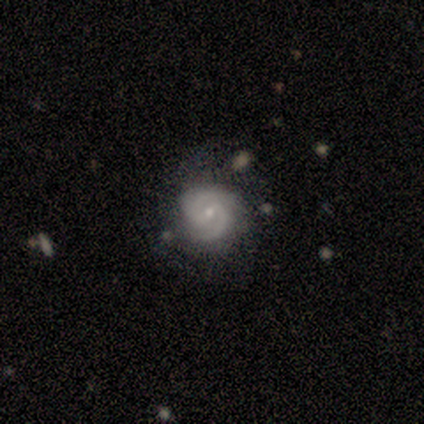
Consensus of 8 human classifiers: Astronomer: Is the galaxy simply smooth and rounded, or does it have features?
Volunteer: featured or disk — 100%.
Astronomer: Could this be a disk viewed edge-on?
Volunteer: no — 100%.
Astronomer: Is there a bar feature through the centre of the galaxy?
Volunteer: weak — 88%.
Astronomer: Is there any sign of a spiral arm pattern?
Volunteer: yes — 100%.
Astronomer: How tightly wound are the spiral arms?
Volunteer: medium — 62%.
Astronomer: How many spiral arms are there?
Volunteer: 2 — 88%.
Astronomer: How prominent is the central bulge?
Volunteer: small — 75%.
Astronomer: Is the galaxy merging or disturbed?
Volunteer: none — 75%.